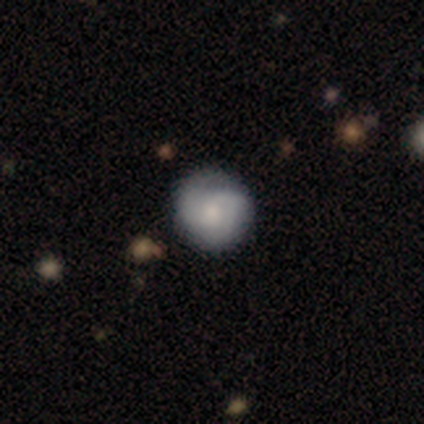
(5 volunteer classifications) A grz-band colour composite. It shows a featured or disk galaxy (60%) with a weak bar (67%), 2 (100%) medium (100%) spiral arms (67%) and a moderate central bulge (67%). Merging: none (60%).